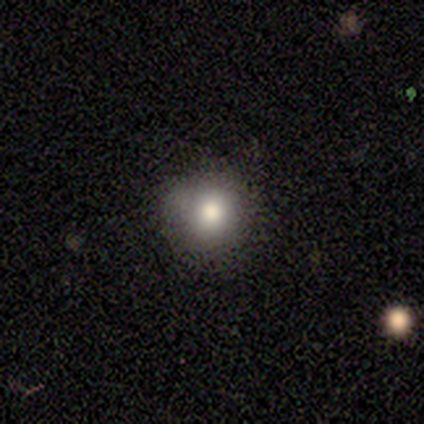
Volunteers were most divided on "smooth or featured": smooth: 80%, star or artifact: 20%, featured or disk: 0%. More confident: how rounded — round (100%); merging — none (100%).